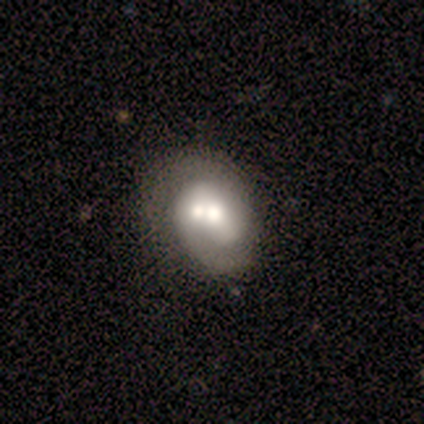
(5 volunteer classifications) featured or disk 60%, smooth 40%, star or artifact 0%. Down the decision tree: edge-on disk — no (100%); bar — no (100%); spiral arms — yes (67%); spiral arm count — 2 (100%); spiral winding — tight (100%); bulge size — small (67%); merging — merger (60%).